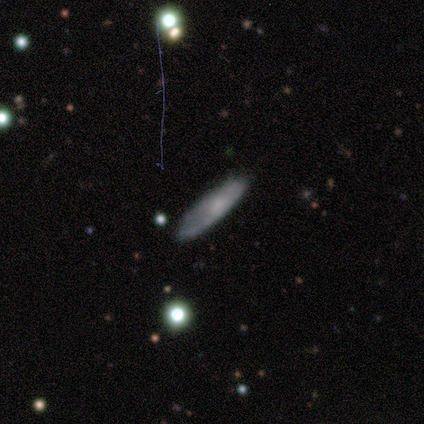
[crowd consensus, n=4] Morphology: type=smooth (50%, tied with star or artifact); roundness=in between (50%, tied with cigar-shaped); merging=none (100%).